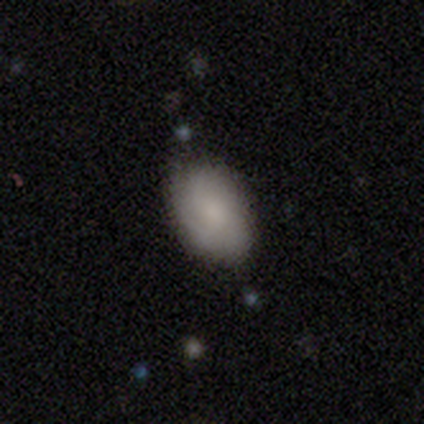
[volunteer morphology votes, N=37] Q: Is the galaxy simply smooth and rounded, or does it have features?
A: smooth — 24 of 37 (65%).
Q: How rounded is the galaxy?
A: in between — 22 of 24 (92%).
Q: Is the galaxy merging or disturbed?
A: none — 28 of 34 (82%).